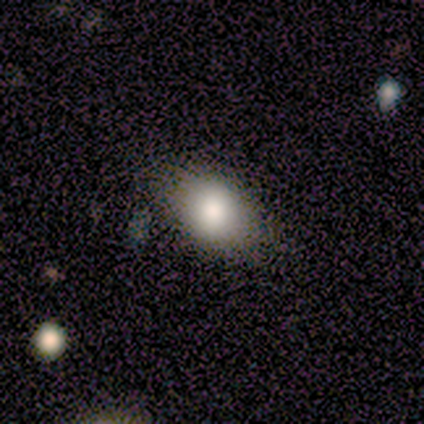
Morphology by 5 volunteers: smooth_or_featured: smooth (p=0.80) [alt: star or artifact p=0.20]
how_rounded: in between (p=1.00)
merging: none (p=0.75) [alt: minor disturbance p=0.25]